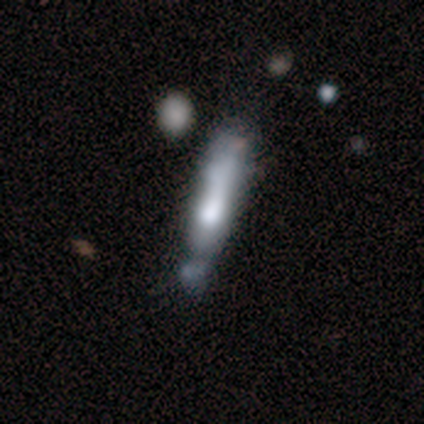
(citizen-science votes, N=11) A smooth galaxy with no disk features (64%) that is cigar-shaped (86%).

Vote fractions:
- Smooth or featured? smooth: 64% / featured or disk: 36% / star or artifact: 0%
- How rounded? cigar-shaped: 86% / in between: 14% / round: 0%
- Merging? minor disturbance: 36% / major disturbance: 27% / none: 18% / merger: 18%